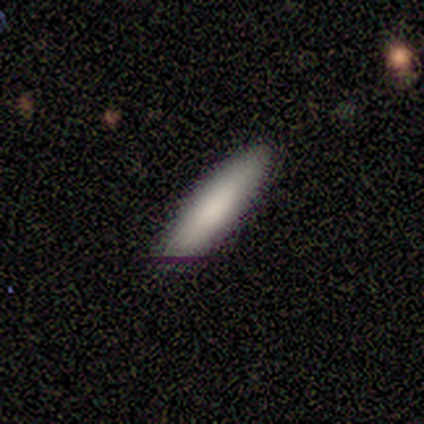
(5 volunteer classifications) This appears to be a smooth galaxy with no disk features (100%) that is cigar-shaped (80%). Merging: none (80%).